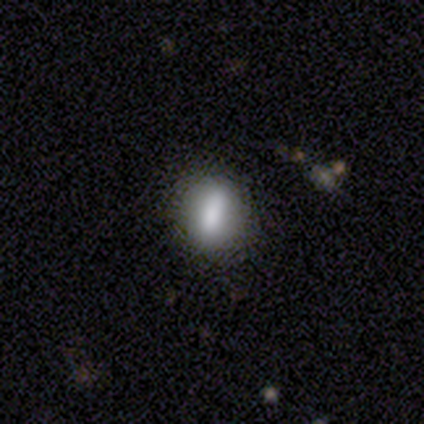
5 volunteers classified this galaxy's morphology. Smooth or featured? 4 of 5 (80%) said smooth. How rounded? 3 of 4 (75%) said in between. Merging? 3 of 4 (75%) said none.